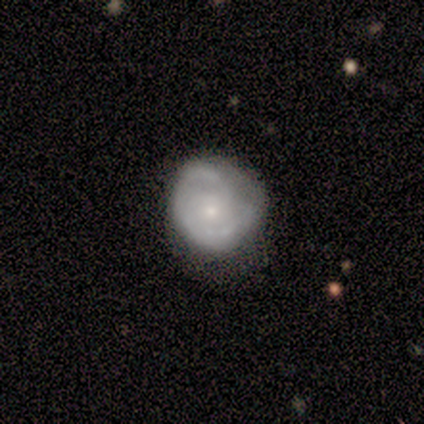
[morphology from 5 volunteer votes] Smooth or featured: featured or disk — 80% (smooth — 20%)
Edge-on disk: no — 100%
Bar: no — 100%
Spiral arms: yes — 50% (tied with no — 50%)
Spiral winding: tight — 50% (tied with medium — 50%)
Spiral arm count: 2 — 50% (tied with can't tell — 50%)
Bulge size: small — 75% (none — 25%)
Merging: none — 80% (major disturbance — 20%)